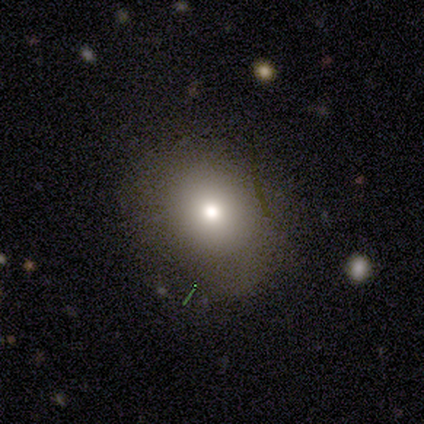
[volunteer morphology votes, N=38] Smooth or featured: smooth — 84% (featured or disk — 11%)
How rounded: round — 56% (in between — 41%)
Merging: none — 83% (minor disturbance — 11%)